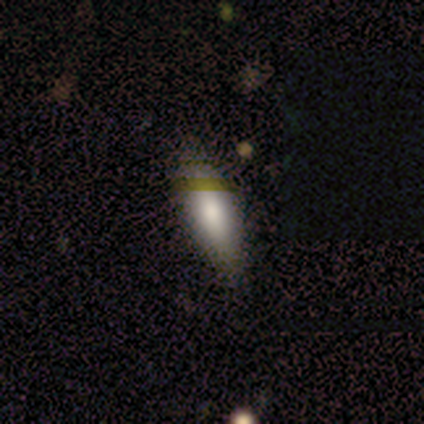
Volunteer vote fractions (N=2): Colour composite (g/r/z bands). It shows a smooth galaxy with no disk features (100%) that is in between round and cigar-shaped (100%). Merging: none (100%).